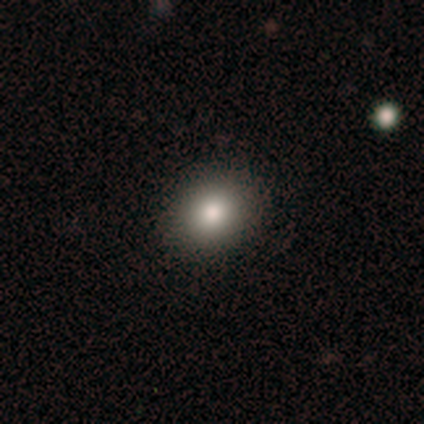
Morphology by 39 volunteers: Smooth or featured? 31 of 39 (79%) said smooth. How rounded? 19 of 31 (61%) said round. Merging? 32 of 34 (94%) said none.